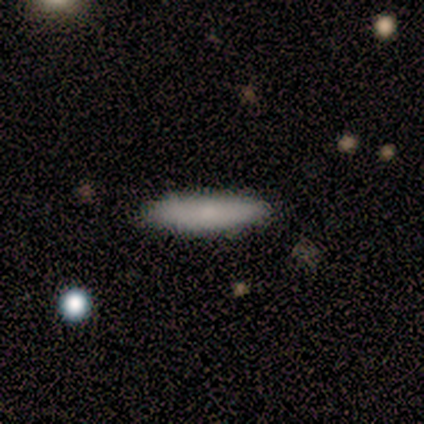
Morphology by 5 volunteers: Volunteers were most divided on "how rounded": in between: 60%, cigar-shaped: 40%, round: 0%. More confident: smooth or featured — smooth (100%); merging — none (100%).